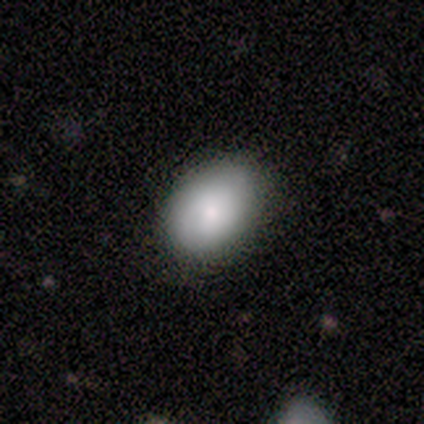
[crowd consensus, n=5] A smooth galaxy with no disk features (80%) that is in between round and cigar-shaped (75%). Merging: none (80%).